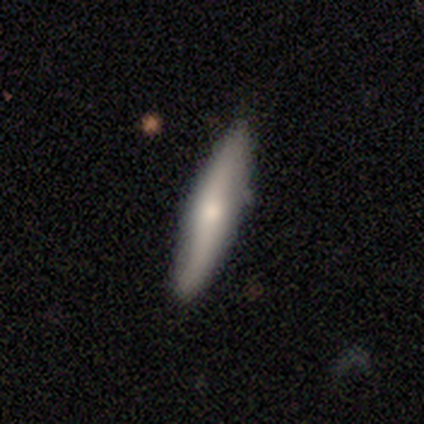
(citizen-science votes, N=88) A smooth galaxy with no disk features (52%) that is cigar-shaped (93%). Merging: none (86%).